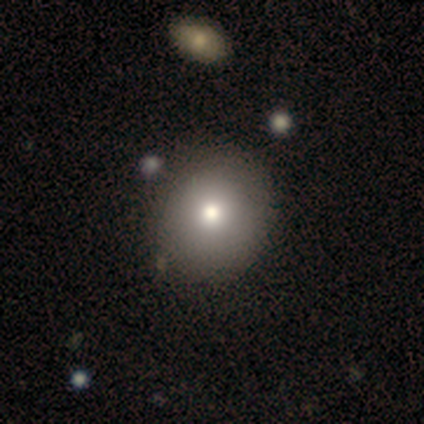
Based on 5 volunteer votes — Volunteers were most divided on "smooth or featured": smooth: 60%, featured or disk: 40%, star or artifact: 0%. More confident: how rounded — round (100%); merging — none (80%).